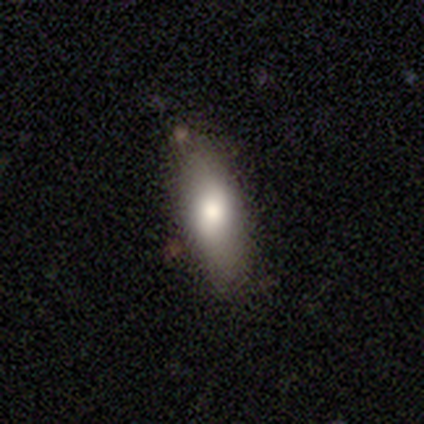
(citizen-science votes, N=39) Smooth or featured?
  - smooth: 77% *
  - featured or disk: 18%
  - star or artifact: 5%
How rounded?
  - in between: 77% *
  - cigar-shaped: 23%
  - round: 0%
Merging?
  - none: 78% *
  - minor disturbance: 19%
  - merger: 3%
  - major disturbance: 0%